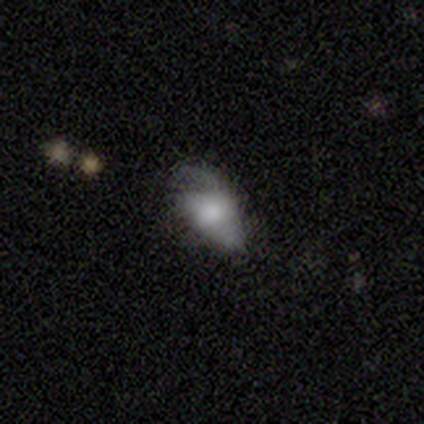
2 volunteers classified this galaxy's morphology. type=smooth (100%); roundness=in between (50%, tied with cigar-shaped); merging=minor disturbance (50%, tied with major disturbance).